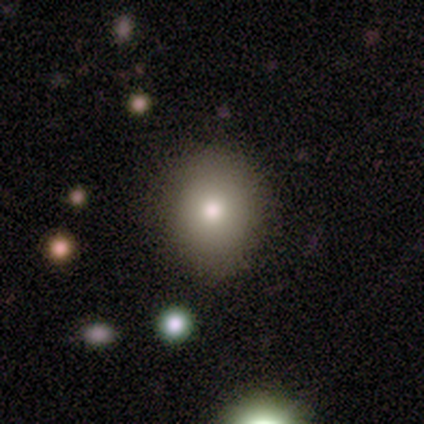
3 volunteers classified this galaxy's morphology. Overall: smooth (100%). How rounded: round (100%). Merging: none (100%).